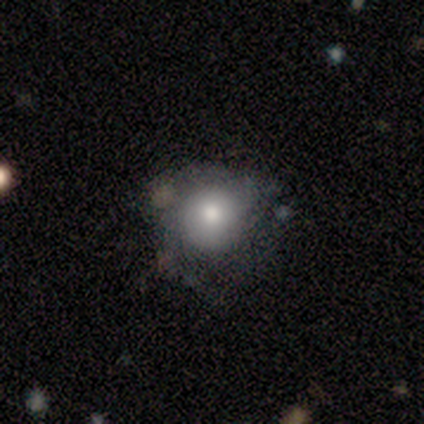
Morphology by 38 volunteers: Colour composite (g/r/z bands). It shows a smooth galaxy with no disk features (58%) that is round (95%). Merging: none (51%).